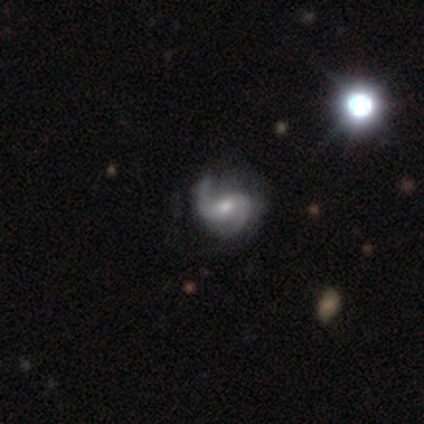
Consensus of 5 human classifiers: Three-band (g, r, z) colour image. It shows a featured or disk galaxy (100%) with a strong bar (40%, tied with no), 2 (100%) loose (80%) spiral arms (100%) and a moderate central bulge (80%). Merging: none (60%).